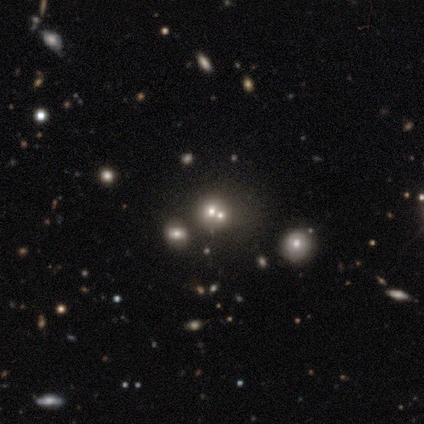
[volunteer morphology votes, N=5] smooth-or-featured: featured or disk: 40% (tied) | star or artifact: 40% (tied) | smooth: 20%
  disk-edge-on: no: 100% | yes: 0%
    bar: strong: 50% (tied) | no: 50% (tied) | weak: 0%
    has-spiral-arms: yes: 50% (tied) | no: 50% (tied)
      spiral-winding: medium: 100% | tight: 0% | loose: 0%
      spiral-arm-count: 4: 100% | 1: 0% | 2: 0% | 3: 0% | more than 4: 0% | can't tell: 0%
    bulge-size: dominant: 50% (tied) | moderate: 50% (tied) | large: 0% | small: 0% | none: 0%
  merging: none: 33% (tied) | minor disturbance: 33% (tied) | merger: 33% (tied) | major disturbance: 0%